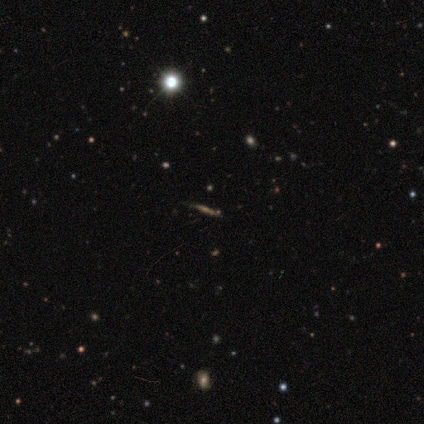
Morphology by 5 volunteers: Q: Smooth or featured?
A: star or artifact (60%); runner-up: smooth (20%)